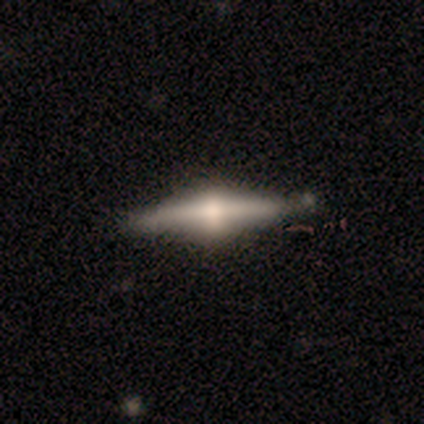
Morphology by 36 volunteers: smooth_or_featured: featured or disk (p=0.72) [alt: smooth p=0.17]
disk_edge_on: yes (p=0.92) [alt: no p=0.08]
edge_on_bulge: rounded (p=0.92) [alt: boxy p=0.08]
merging: none (p=0.69) [alt: minor disturbance p=0.22]